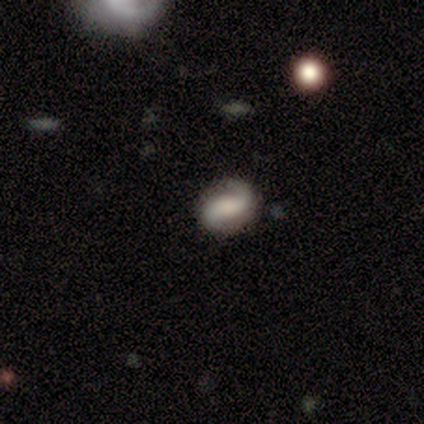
Q: Smooth or featured?
A: featured or disk (75%); runner-up: star or artifact (25%)
Q: Edge-on disk?
A: no (100%)
Q: Bar?
A: no (67%); runner-up: weak (33%)
Q: Spiral arms?
A: yes (100%)
Q: Spiral winding?
A: medium (67%); runner-up: loose (33%)
Q: Spiral arm count?
A: 2 (67%); runner-up: can't tell (33%)
Q: Bulge size?
A: moderate (67%); runner-up: large (33%)
Q: Merging?
A: none (67%); runner-up: minor disturbance (33%)